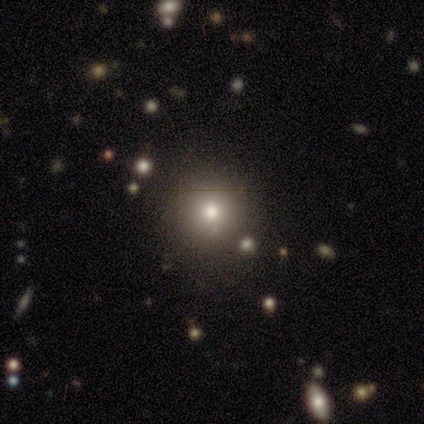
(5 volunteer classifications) This appears to be a smooth galaxy with no disk features (100%) that is round (80%). Merging: none (100%).